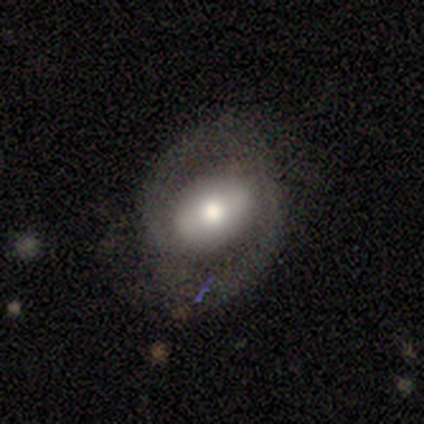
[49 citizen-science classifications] smooth-or-featured: featured or disk: 61% | smooth: 29% | star or artifact: 10%
  disk-edge-on: no: 93% | yes: 7%
    bar: no: 46% | weak: 29% | strong: 25%
    has-spiral-arms: yes: 57% | no: 43%
      spiral-winding: medium: 50% | tight: 38% | loose: 12%
      spiral-arm-count: 2: 94% | can't tell: 6% | 1: 0% | 3: 0% | 4: 0% | more than 4: 0%
    bulge-size: moderate: 71% | large: 14% | small: 11% | none: 4% | dominant: 0%
  merging: none: 55% | minor disturbance: 30% | major disturbance: 16% | merger: 0%